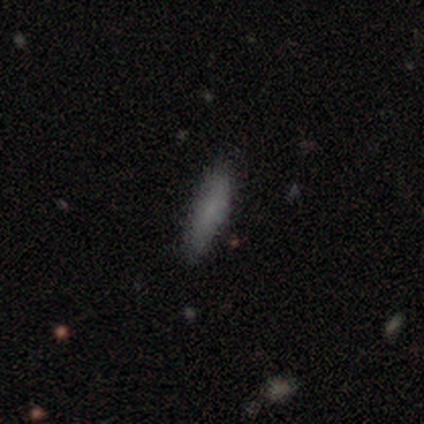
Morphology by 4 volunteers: smooth 75%, featured or disk 25%, star or artifact 0%. Down the decision tree: how rounded — cigar-shaped (100%); merging — none (50%).